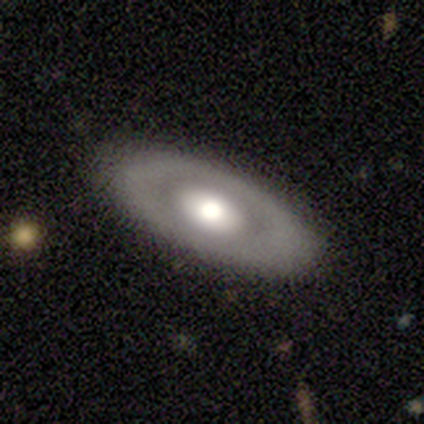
Overall: featured or disk (57%; smooth 38%). Edge-on disk: no (83%). Bar: no (100%). Spiral arms: no (100%). Bulge size: moderate (65%). Merging: none (88%).